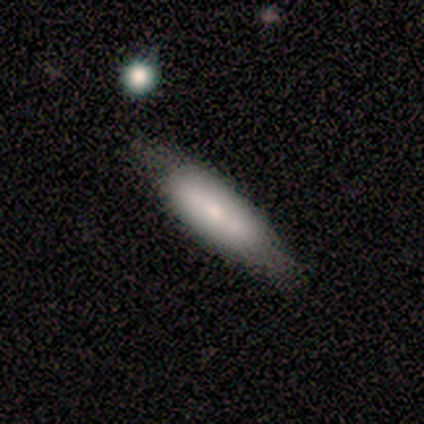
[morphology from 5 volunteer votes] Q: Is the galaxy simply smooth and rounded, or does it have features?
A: smooth — 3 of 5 (60%).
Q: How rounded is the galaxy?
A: in between — 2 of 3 (67%).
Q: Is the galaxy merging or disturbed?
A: none — 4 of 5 (80%).